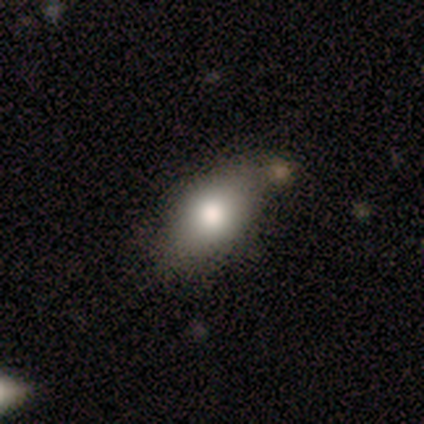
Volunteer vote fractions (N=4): Volunteers were most divided on "how rounded": in between: 67%, round: 33%, cigar-shaped: 0%. More confident: smooth or featured — smooth (75%); merging — none (67%).